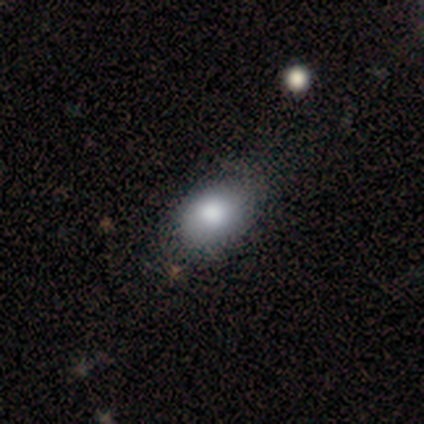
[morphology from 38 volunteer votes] This is clearly a smooth galaxy (92%). How rounded: likely in between (77%). Merging: possibly none (53%).